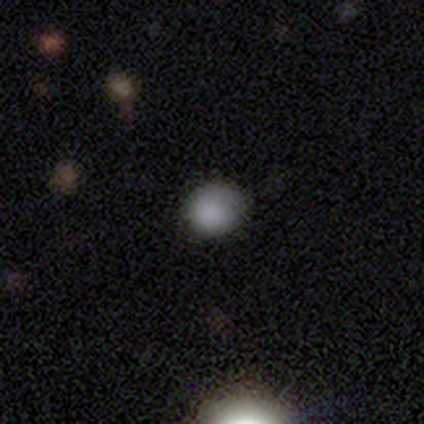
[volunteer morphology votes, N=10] Overall: smooth (70%; star or artifact 30%). How rounded: round (86%). Merging: none (86%).